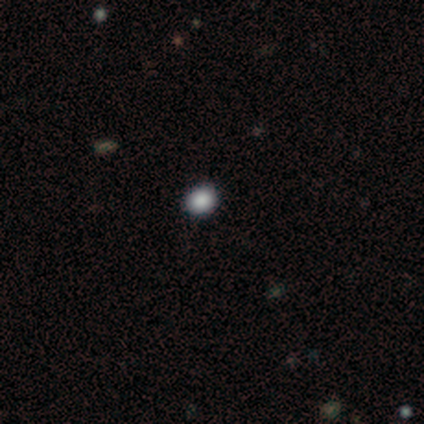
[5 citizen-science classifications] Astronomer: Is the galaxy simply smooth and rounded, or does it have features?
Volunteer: smooth — 80%.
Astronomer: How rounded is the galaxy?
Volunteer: round — 50%, tied with in between at 50%.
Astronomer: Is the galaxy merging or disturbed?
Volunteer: none — 100%.